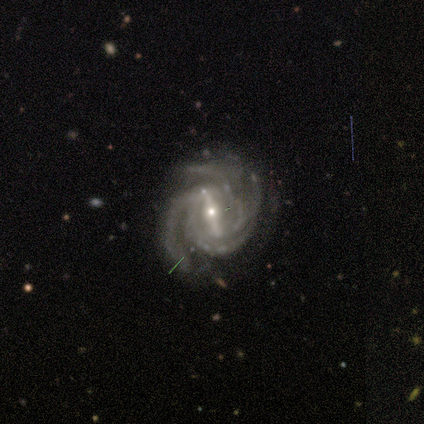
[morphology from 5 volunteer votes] type=featured or disk (100%); edge-on=no (100%); bar=strong (80%); spiral arms=yes (100%); winding=medium (80%); arm count=4 (40%); bulge=small (80%); merging=none (80%).